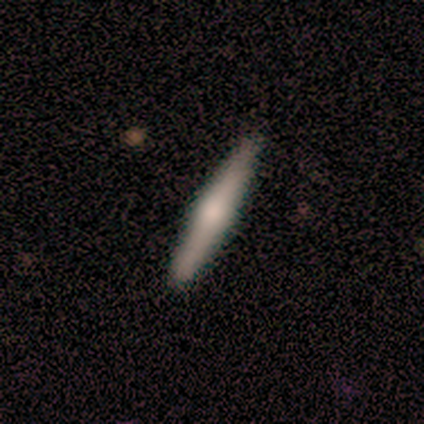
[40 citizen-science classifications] A featured or disk galaxy (60%) viewed edge-on (96%) with a rounded central bulge (87%). Merging: none (94%).